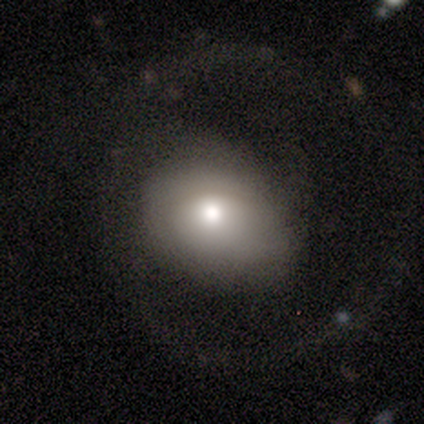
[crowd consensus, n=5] This appears to be a featured or disk galaxy (100%) with no bar (100%), no spiral arms (80%) and a moderate central bulge (60%). Merging: major disturbance (60%).